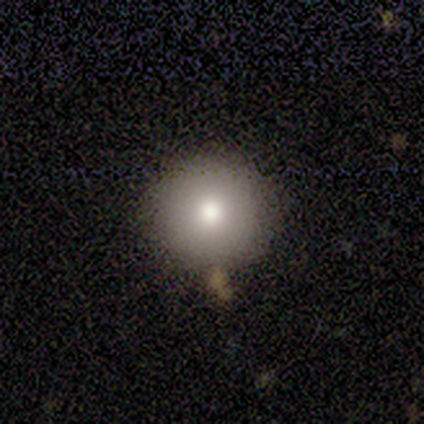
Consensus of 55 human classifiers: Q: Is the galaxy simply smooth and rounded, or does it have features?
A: smooth — 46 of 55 (84%).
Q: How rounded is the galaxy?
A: round — 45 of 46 (98%).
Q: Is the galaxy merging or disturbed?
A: none — 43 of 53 (81%).